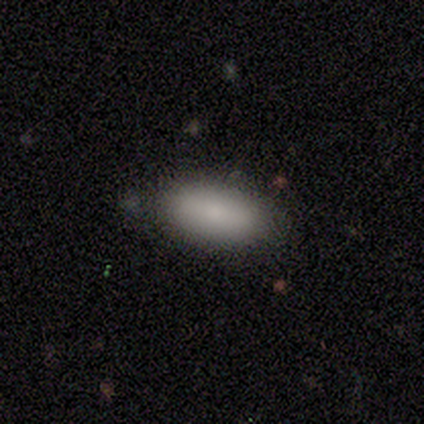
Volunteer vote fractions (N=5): Smooth or featured?
  - smooth: 100% *
  - featured or disk: 0%
  - star or artifact: 0%
How rounded?
  - in between: 100% *
  - round: 0%
  - cigar-shaped: 0%
Merging?
  - none: 80% *
  - minor disturbance: 20%
  - major disturbance: 0%
  - merger: 0%